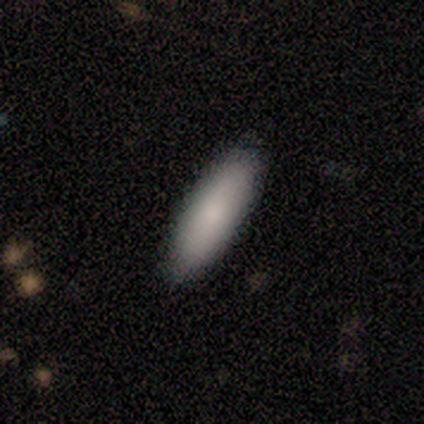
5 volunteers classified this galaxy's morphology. This appears to be a smooth galaxy with no disk features (80%) that is cigar-shaped (75%). Merging: none (80%).